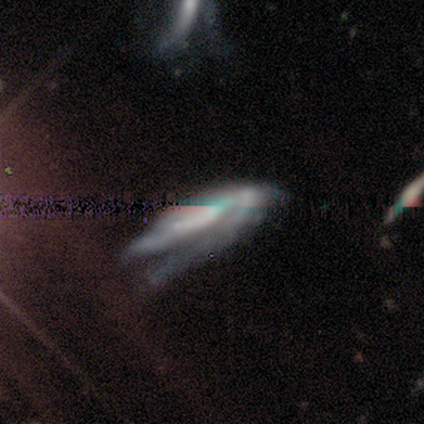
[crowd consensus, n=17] A featured or disk galaxy (59%) with a strong bar (33%, tied with weak and no), 1 (33%, tied with 2) medium (67%) spiral arms (100%) and a large central bulge (33%, tied with none).

Vote fractions:
- Smooth or featured? featured or disk: 59% / star or artifact: 29% / smooth: 12%
- Edge-on disk? no: 60% / yes: 40%
- Bar? strong: 33% (tied) / weak: 33% (tied) / no: 33% (tied)
- Spiral arms? yes: 100% / no: 0%
- Spiral winding? medium: 67% / tight: 17% / loose: 17%
- Spiral arm count? 1: 33% (tied) / 2: 33% (tied) / 3: 17% / can't tell: 17% / 4: 0% / more than 4: 0%
- Bulge size? large: 33% (tied) / none: 33% (tied) / moderate: 17% / small: 17% / dominant: 0%
- Merging? major disturbance: 50% / none: 25% / minor disturbance: 25% / merger: 0%